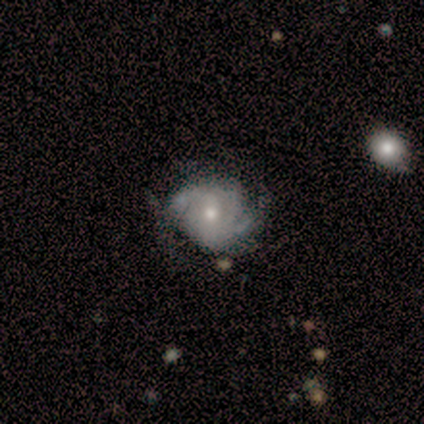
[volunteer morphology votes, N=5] Q: Smooth or featured?
A: featured or disk (100%)
Q: Edge-on disk?
A: no (100%)
Q: Bar?
A: no (60%); runner-up: weak (40%)
Q: Spiral arms?
A: yes (100%)
Q: Spiral winding?
A: tight (60%); runner-up: medium (20%)
Q: Spiral arm count?
A: 2 (80%); runner-up: can't tell (20%)
Q: Bulge size?
A: moderate (40%); tied with: small (40%)
Q: Merging?
A: none (80%); runner-up: minor disturbance (20%)